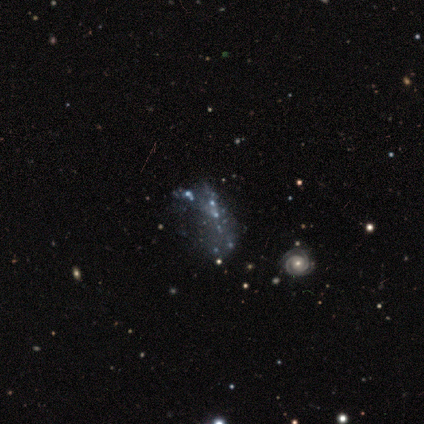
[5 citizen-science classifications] smooth-or-featured: featured or disk: 60% | star or artifact: 40% | smooth: 0%
  disk-edge-on: no: 100% | yes: 0%
    bar: no: 67% | strong: 33% | weak: 0%
    has-spiral-arms: no: 67% | yes: 33%
    bulge-size: none: 67% | small: 33% | dominant: 0% | large: 0% | moderate: 0%
  merging: minor disturbance: 67% | major disturbance: 33% | none: 0% | merger: 0%